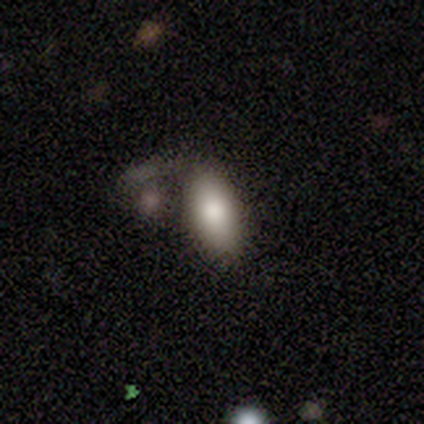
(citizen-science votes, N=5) smooth-or-featured: smooth: 100% | featured or disk: 0% | star or artifact: 0%
  how-rounded: in between: 100% | round: 0% | cigar-shaped: 0%
  merging: none: 60% | minor disturbance: 20% | major disturbance: 20% | merger: 0%